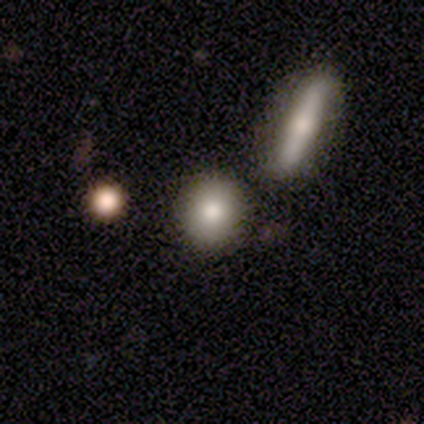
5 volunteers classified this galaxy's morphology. This appears to be a smooth galaxy with no disk features (100%) that is round (100%). Merging: none (100%).